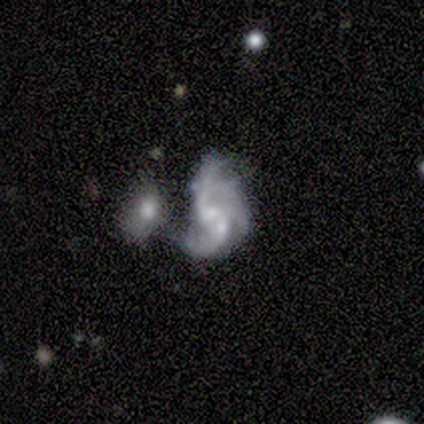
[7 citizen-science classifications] Q: Smooth or featured?
A: featured or disk (100%)
Q: Edge-on disk?
A: no (100%)
Q: Bar?
A: weak (57%); runner-up: no (29%)
Q: Spiral arms?
A: yes (86%); runner-up: no (14%)
Q: Spiral winding?
A: tight (33%); tied with: medium (33%); loose (33%)
Q: Spiral arm count?
A: 2 (33%); tied with: 3 (33%); can't tell (33%)
Q: Bulge size?
A: moderate (57%); runner-up: none (29%)
Q: Merging?
A: merger (71%); runner-up: minor disturbance (14%)